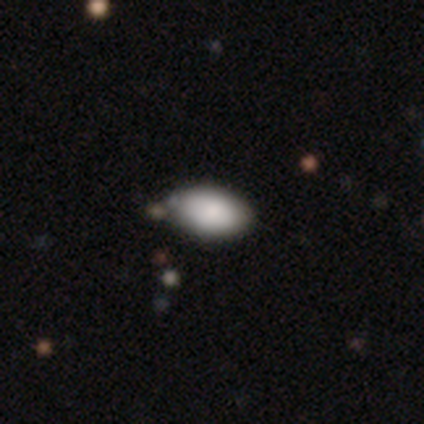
Smooth or featured? smooth (100%)
How rounded? in between (100%)
Merging? none (80%)